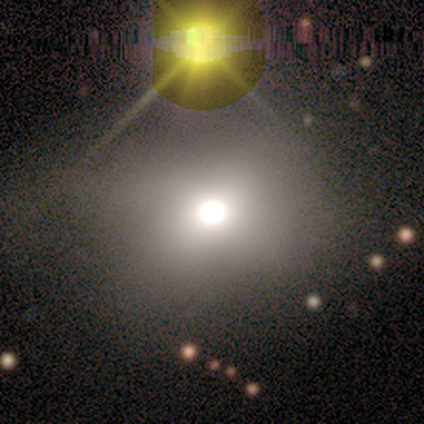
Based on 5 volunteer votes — Smooth or featured? 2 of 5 (40%, tied with star or artifact) said smooth. How rounded? 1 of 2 (50%, tied with in between) said round. Merging? 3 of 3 (100%) said none.